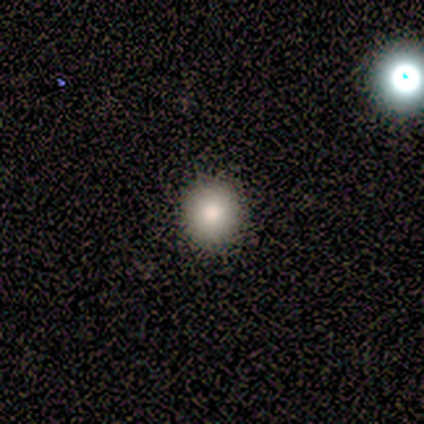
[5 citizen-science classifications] Smooth or featured: smooth — 100%
How rounded: round — 80% (in between — 20%)
Merging: none — 100%